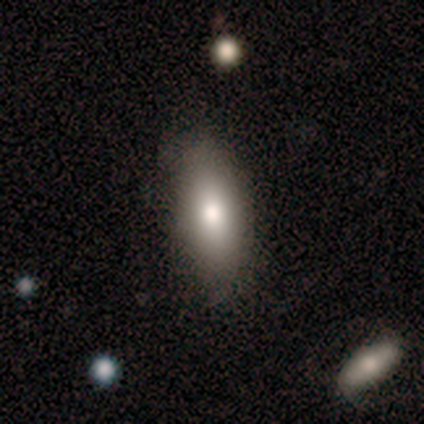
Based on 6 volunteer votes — Smooth or featured? smooth (67%)
How rounded? in between (50%, tied with cigar-shaped)
Merging? none (83%)